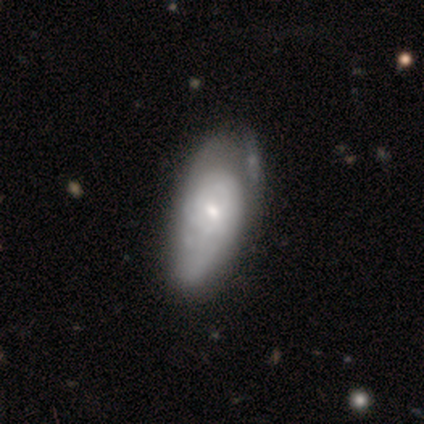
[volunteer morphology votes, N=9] Q: Smooth or featured?
A: featured or disk (67%); runner-up: smooth (33%)
Q: Edge-on disk?
A: no (100%)
Q: Bar?
A: no (83%); runner-up: weak (17%)
Q: Spiral arms?
A: yes (83%); runner-up: no (17%)
Q: Spiral winding?
A: tight (60%); runner-up: medium (40%)
Q: Spiral arm count?
A: can't tell (80%); runner-up: 2 (20%)
Q: Bulge size?
A: small (67%); runner-up: dominant (17%)
Q: Merging?
A: minor disturbance (78%); runner-up: major disturbance (11%)